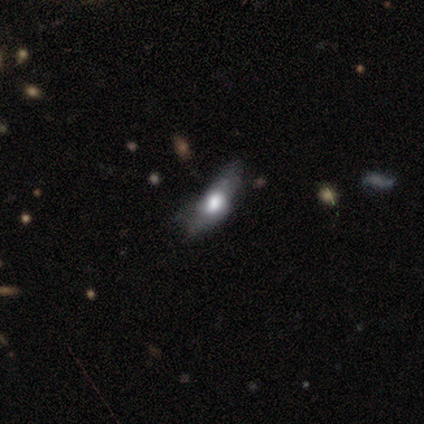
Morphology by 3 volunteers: This is likely a smooth galaxy (67%). How rounded: possibly in between (50%, tied with cigar-shaped). Merging: likely none (67%).